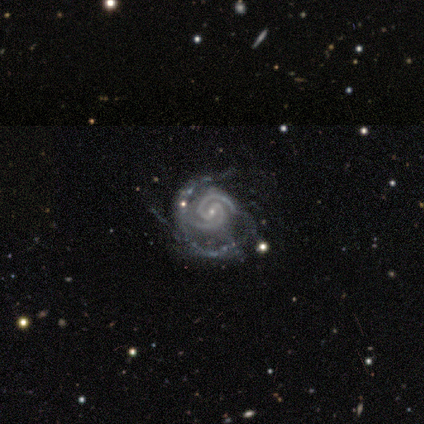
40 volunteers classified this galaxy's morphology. Smooth or featured?
  - featured or disk: 92% *
  - star or artifact: 5%
  - smooth: 2%
Edge-on disk?
  - no: 97% *
  - yes: 3%
Bar?
  - weak: 47% *
  - no: 31%
  - strong: 22%
Spiral arms?
  - yes: 100% *
  - no: 0%
Spiral winding?
  - tight: 78% *
  - medium: 19%
  - loose: 3%
Spiral arm count?
  - 2: 72% *
  - 3: 19%
  - can't tell: 6%
  - 4: 3%
  - 1: 0%
  - more than 4: 0%
Bulge size?
  - small: 100% *
  - dominant: 0%
  - large: 0%
  - moderate: 0%
  - none: 0%
Merging?
  - major disturbance: 45% *
  - none: 37%
  - minor disturbance: 11%
  - merger: 8%